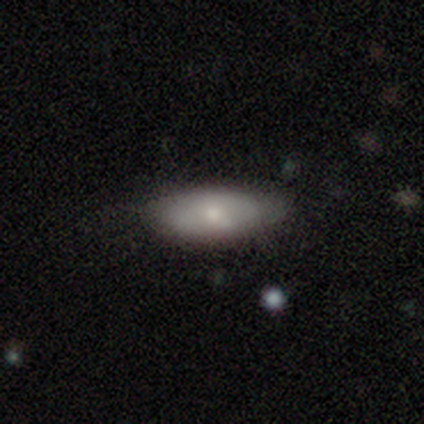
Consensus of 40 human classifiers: smooth 70%, featured or disk 28%, star or artifact 2%. Down the decision tree: how rounded — in between (96%); merging — none (51%).